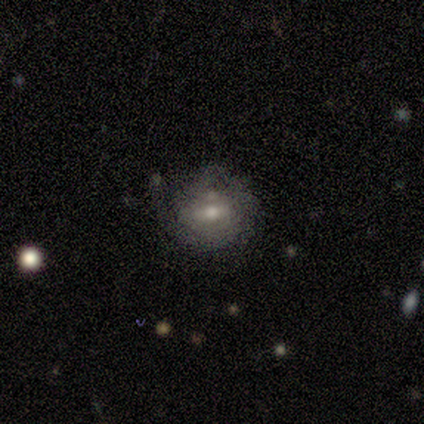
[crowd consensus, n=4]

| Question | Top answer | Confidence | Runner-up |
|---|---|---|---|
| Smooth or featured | featured or disk | 100% | — |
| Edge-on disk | no | 75% | yes (25%) |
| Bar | no | 67% | weak (33%) |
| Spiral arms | yes | 67% | no (33%) |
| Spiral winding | tight | 100% | — |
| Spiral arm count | can't tell | 100% | — |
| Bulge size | moderate | 67% | small (33%) |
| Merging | none | 75% | merger (25%) |